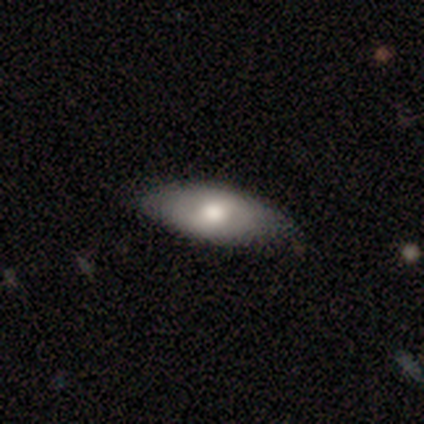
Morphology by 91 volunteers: Overall: smooth (69%). How rounded: in between (81%). Merging: none (81%).